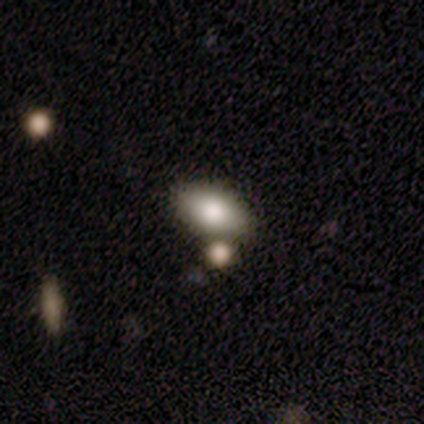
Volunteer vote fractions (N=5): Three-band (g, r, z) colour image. It shows a smooth galaxy with no disk features (100%) that is in between round and cigar-shaped (100%). Merging: none (100%).